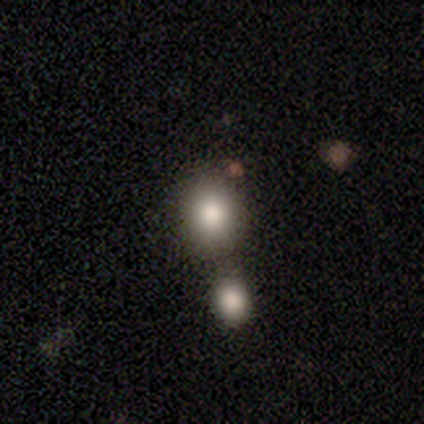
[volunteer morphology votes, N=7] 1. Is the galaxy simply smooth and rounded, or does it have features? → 71% smooth, 14% featured or disk, 14% star or artifact.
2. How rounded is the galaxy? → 80% round, 20% in between, 0% cigar-shaped.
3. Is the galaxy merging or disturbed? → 67% none, 33% merger, 0% minor disturbance, 0% major disturbance.